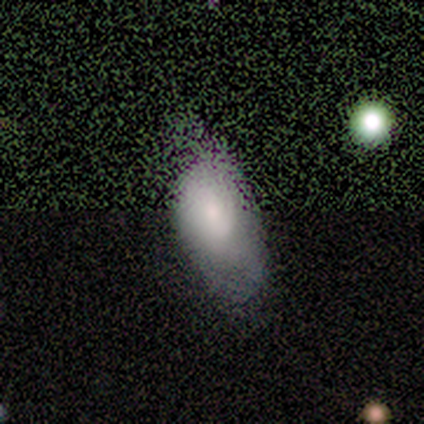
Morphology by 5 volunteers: Smooth or featured: smooth — 80% (star or artifact — 20%)
How rounded: in between — 100%
Merging: none — 50% (tied with minor disturbance — 50%)